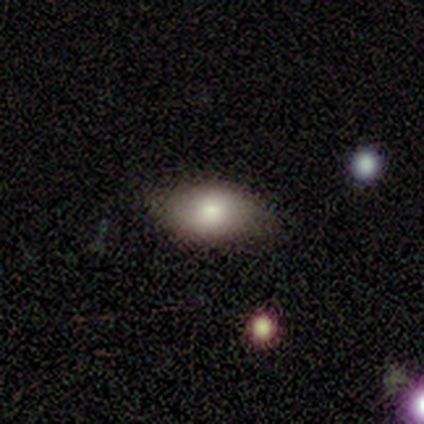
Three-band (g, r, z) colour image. It shows a smooth galaxy with no disk features (80%) that is in between round and cigar-shaped (100%). Merging: none (60%).